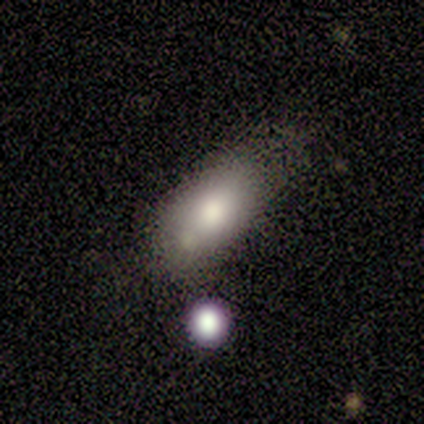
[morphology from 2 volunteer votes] Smooth or featured?
  - smooth: 100% *
  - featured or disk: 0%
  - star or artifact: 0%
How rounded?
  - round: 50% * (tied)
  - in between: 50% * (tied)
  - cigar-shaped: 0%
Merging?
  - minor disturbance: 100% *
  - none: 0%
  - major disturbance: 0%
  - merger: 0%